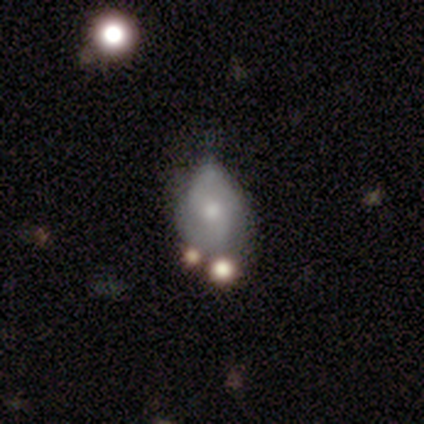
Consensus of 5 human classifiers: smooth_or_featured: smooth (p=0.40) [tied with: featured or disk p=0.40]
how_rounded: in between (p=1.00)
merging: minor disturbance (p=1.00)